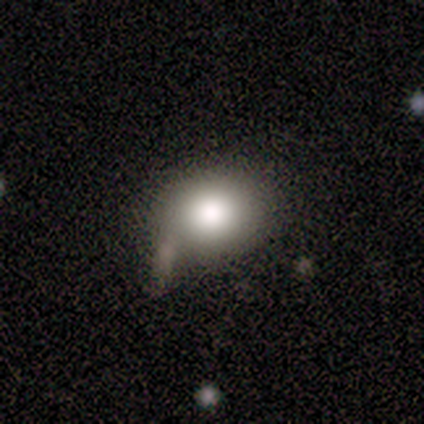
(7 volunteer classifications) smooth 71%, featured or disk 14%, star or artifact 14%. Down the decision tree: how rounded — in between (60%); merging — none (50%, tied with minor disturbance).